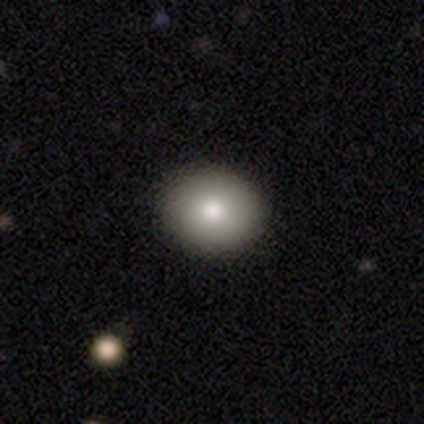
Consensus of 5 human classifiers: Smooth or featured: smooth — 80% (featured or disk — 20%)
How rounded: round — 75% (in between — 25%)
Merging: none — 80% (minor disturbance — 20%)